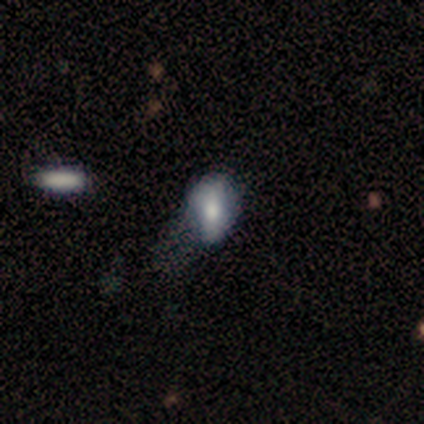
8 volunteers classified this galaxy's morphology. smooth-or-featured: smooth: 88% | star or artifact: 12% | featured or disk: 0%
  how-rounded: in between: 71% | round: 29% | cigar-shaped: 0%
  merging: minor disturbance: 57% | major disturbance: 43% | none: 0% | merger: 0%